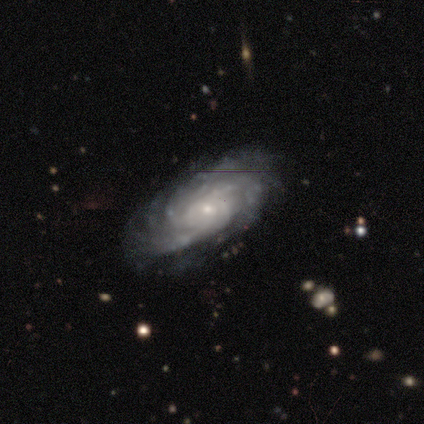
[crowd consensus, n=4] Morphology: type=featured or disk (100%); edge-on=no (100%); bar=no (100%); spiral arms=yes (100%); winding=medium (50%); arm count=4 (50%); bulge=moderate (50%, tied with small); merging=none (75%).